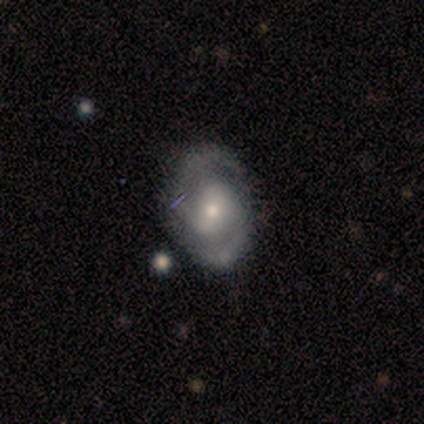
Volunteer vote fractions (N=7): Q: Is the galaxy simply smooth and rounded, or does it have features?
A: featured or disk — 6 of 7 (86%).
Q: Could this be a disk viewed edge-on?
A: no — 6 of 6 (100%).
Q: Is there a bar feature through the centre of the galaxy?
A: no — 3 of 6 (50%).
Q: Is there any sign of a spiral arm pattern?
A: yes — 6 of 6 (100%).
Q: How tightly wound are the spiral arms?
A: medium — 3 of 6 (50%, tied with loose).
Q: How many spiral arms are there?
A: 2 — 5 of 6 (83%).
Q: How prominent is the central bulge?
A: small — 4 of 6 (67%).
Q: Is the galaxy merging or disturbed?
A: none — 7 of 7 (100%).